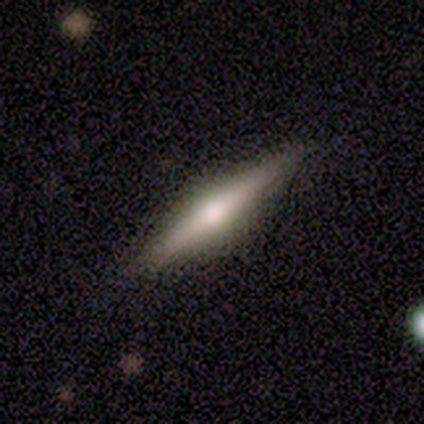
Morphology: type=smooth (50%, tied with featured or disk); roundness=cigar-shaped (100%); merging=none (100%).